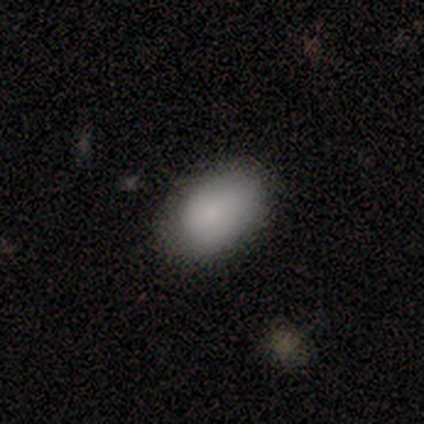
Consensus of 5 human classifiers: Smooth or featured?
  - smooth: 80% *
  - star or artifact: 20%
  - featured or disk: 0%
How rounded?
  - in between: 100% *
  - round: 0%
  - cigar-shaped: 0%
Merging?
  - none: 50% *
  - minor disturbance: 25%
  - major disturbance: 25%
  - merger: 0%